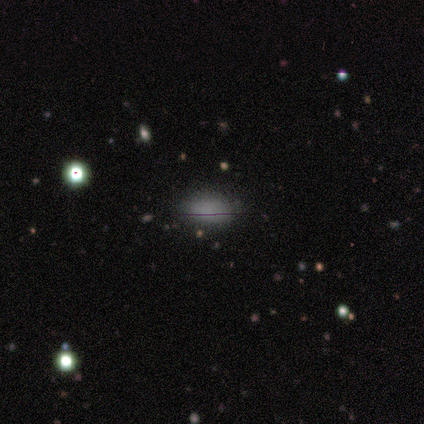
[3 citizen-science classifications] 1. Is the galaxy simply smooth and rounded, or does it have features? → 67% smooth, 33% featured or disk, 0% star or artifact.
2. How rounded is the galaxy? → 100% in between, 0% round, 0% cigar-shaped.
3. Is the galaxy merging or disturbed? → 67% minor disturbance, 33% none, 0% major disturbance, 0% merger.